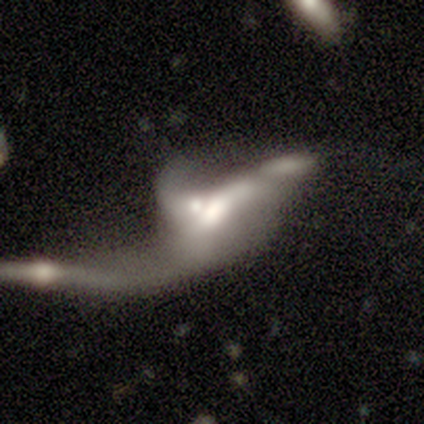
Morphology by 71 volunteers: Smooth or featured? featured or disk (69%)
Edge-on disk? no (98%)
Bar? no (77%)
Spiral arms? no (56%)
Bulge size? moderate (52%)
Merging? merger (72%)